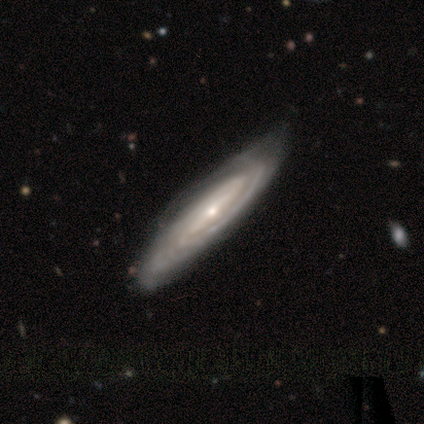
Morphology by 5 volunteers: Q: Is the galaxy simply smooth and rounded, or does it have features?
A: featured or disk — 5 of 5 (100%).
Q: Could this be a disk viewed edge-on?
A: no — 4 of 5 (80%).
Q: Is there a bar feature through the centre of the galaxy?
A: strong — 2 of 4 (50%).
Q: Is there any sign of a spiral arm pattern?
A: yes — 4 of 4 (100%).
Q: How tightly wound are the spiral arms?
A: tight — 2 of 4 (50%, tied with medium).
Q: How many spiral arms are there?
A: can't tell — 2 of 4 (50%).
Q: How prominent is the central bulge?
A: small — 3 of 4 (75%).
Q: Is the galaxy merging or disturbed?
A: none — 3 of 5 (60%).